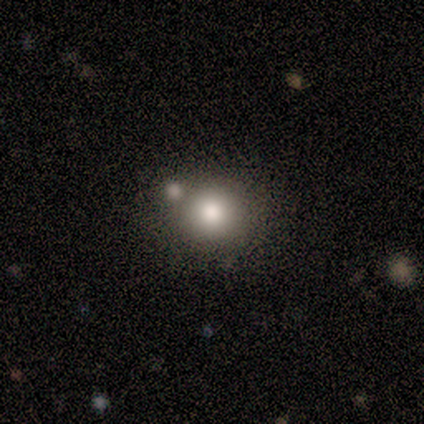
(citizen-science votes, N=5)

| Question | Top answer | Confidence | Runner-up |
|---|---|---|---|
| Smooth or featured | smooth | 60% | star or artifact (40%) |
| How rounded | round | 67% | in between (33%) |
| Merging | none | 100% | — |